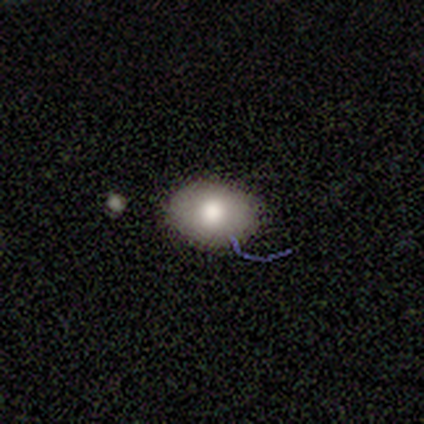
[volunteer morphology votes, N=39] Smooth or featured? 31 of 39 (79%) said smooth. How rounded? 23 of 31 (74%) said in between. Merging? 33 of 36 (92%) said none.